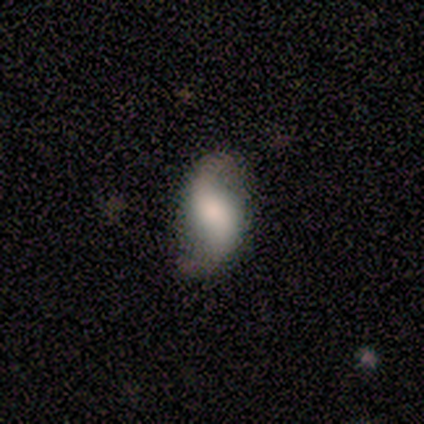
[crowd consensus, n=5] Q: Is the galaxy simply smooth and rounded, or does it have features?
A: featured or disk — 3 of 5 (60%).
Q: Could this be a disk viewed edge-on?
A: no — 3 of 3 (100%).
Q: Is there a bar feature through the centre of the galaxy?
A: no — 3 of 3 (100%).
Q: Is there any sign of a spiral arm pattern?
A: yes — 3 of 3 (100%).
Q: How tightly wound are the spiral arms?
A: loose — 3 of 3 (100%).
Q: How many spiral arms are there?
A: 2 — 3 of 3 (100%).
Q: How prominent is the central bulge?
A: dominant — 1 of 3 (33%, tied with moderate and none).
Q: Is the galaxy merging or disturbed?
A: none — 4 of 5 (80%).